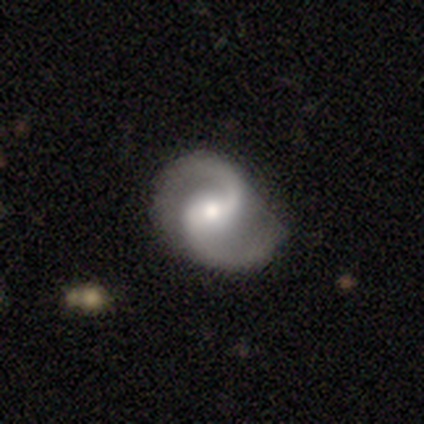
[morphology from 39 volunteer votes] featured or disk 97%, smooth 3%, star or artifact 0%. Down the decision tree: edge-on disk — no (100%); bar — weak (55%); spiral arms — yes (100%); spiral arm count — 2 (100%); spiral winding — medium (74%); bulge size — moderate (82%); merging — none (51%).